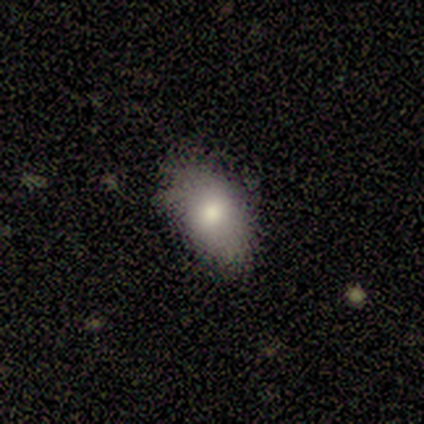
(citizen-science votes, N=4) A featured or disk galaxy (75%) with no bar (100%), no spiral arms (100%) and a large central bulge (50%, tied with moderate).

Vote fractions:
- Smooth or featured? featured or disk: 75% / smooth: 25% / star or artifact: 0%
- Edge-on disk? no: 67% / yes: 33%
- Bar? no: 100% / strong: 0% / weak: 0%
- Spiral arms? no: 100% / yes: 0%
- Bulge size? large: 50% (tied) / moderate: 50% (tied) / dominant: 0% / small: 0% / none: 0%
- Merging? none: 75% / minor disturbance: 25% / major disturbance: 0% / merger: 0%